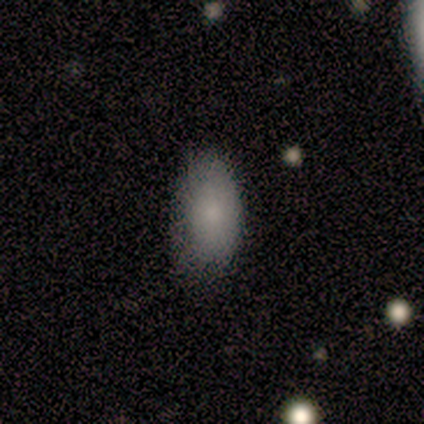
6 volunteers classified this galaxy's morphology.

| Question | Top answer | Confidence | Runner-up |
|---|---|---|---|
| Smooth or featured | smooth | 100% | — |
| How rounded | in between | 100% | — |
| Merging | none | 83% | minor disturbance (17%) |